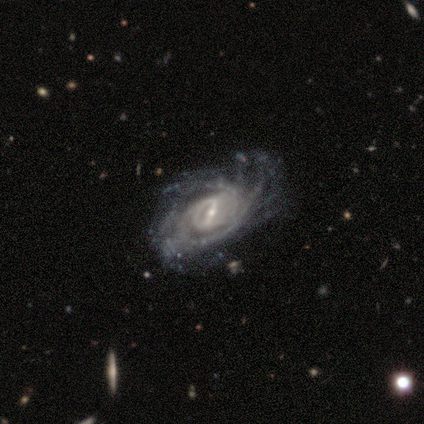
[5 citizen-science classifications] Smooth or featured?
  - featured or disk: 100% *
  - smooth: 0%
  - star or artifact: 0%
Edge-on disk?
  - no: 80% *
  - yes: 20%
Bar?
  - strong: 75% *
  - weak: 25%
  - no: 0%
Spiral arms?
  - yes: 100% *
  - no: 0%
Spiral winding?
  - tight: 75% *
  - medium: 25%
  - loose: 0%
Spiral arm count?
  - more than 4: 75% *
  - 3: 25%
  - 1: 0%
  - 2: 0%
  - 4: 0%
  - can't tell: 0%
Bulge size?
  - small: 75% *
  - moderate: 25%
  - dominant: 0%
  - large: 0%
  - none: 0%
Merging?
  - none: 60% *
  - minor disturbance: 20%
  - major disturbance: 20%
  - merger: 0%